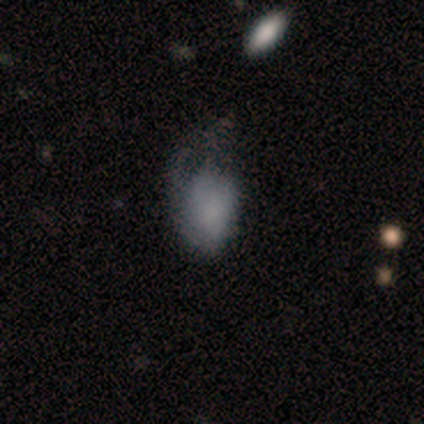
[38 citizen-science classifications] Smooth or featured? 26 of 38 (68%) said smooth. How rounded? 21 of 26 (81%) said in between. Merging? 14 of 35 (40%) said minor disturbance.